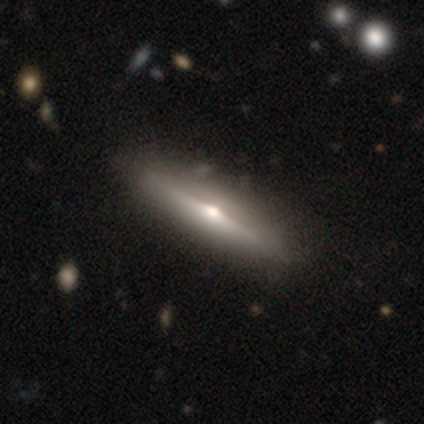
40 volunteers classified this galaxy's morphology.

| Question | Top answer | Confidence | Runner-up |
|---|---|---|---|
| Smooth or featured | featured or disk | 78% | smooth (22%) |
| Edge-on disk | yes | 94% | no (6%) |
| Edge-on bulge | rounded | 97% | none (3%) |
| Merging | none | 57% | minor disturbance (12%) |